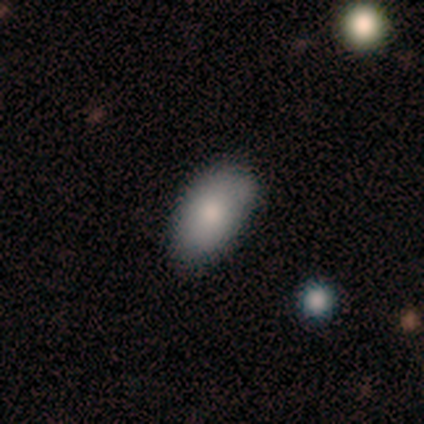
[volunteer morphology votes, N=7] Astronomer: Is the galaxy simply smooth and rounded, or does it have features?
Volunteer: smooth — 71%.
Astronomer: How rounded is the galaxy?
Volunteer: in between — 100%.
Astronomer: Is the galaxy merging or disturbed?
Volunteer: minor disturbance — 57%.